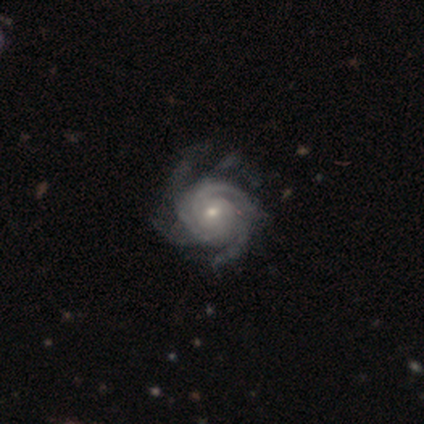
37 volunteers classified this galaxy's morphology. Q: Smooth or featured?
A: featured or disk (97%); runner-up: smooth (3%)
Q: Edge-on disk?
A: no (97%); runner-up: yes (3%)
Q: Bar?
A: no (69%); runner-up: weak (31%)
Q: Spiral arms?
A: yes (100%)
Q: Spiral winding?
A: tight (66%); runner-up: medium (31%)
Q: Spiral arm count?
A: 4 (31%); runner-up: 3 (26%)
Q: Bulge size?
A: small (66%); runner-up: moderate (34%)
Q: Merging?
A: none (49%); runner-up: minor disturbance (16%)